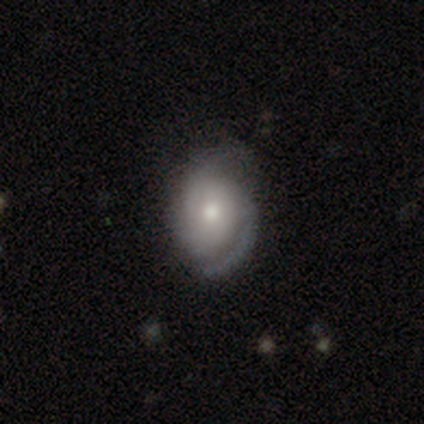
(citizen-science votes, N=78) smooth-or-featured: featured or disk: 71% | smooth: 29% | star or artifact: 0%
  disk-edge-on: no: 100% | yes: 0%
    bar: no: 84% | weak: 16% | strong: 0%
    has-spiral-arms: yes: 87% | no: 13%
      spiral-winding: medium: 54% | tight: 35% | loose: 10%
      spiral-arm-count: 2: 67% | can't tell: 21% | 1: 6% | 3: 6% | 4: 0% | more than 4: 0%
    bulge-size: moderate: 65% | small: 31% | large: 4% | dominant: 0% | none: 0%
  merging: none: 31% | minor disturbance: 18% | major disturbance: 3% | merger: 0%